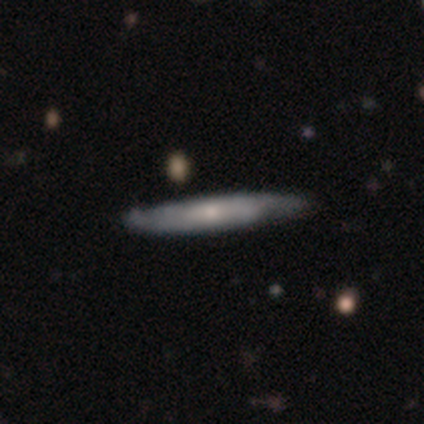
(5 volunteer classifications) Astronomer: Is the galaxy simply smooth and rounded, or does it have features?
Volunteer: smooth — 60% (runner-up: featured or disk, 40%).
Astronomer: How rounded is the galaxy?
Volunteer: cigar-shaped — 100%.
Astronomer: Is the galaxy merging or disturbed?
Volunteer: none — 80%.